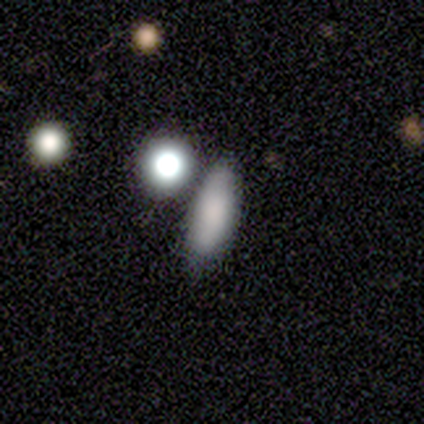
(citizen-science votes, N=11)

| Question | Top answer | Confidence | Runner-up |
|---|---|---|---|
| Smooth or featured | smooth | 100% | — |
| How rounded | in between | 82% | round (9%) |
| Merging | none | 91% | minor disturbance (9%) |